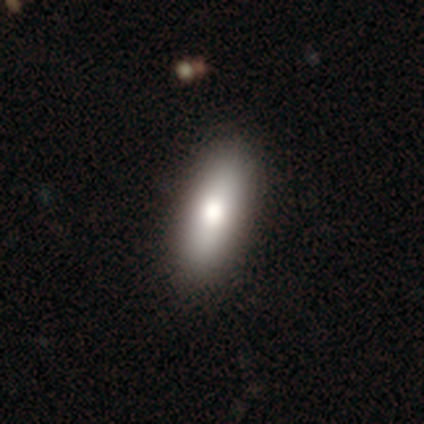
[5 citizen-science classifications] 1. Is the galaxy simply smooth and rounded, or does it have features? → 60% smooth, 40% featured or disk, 0% star or artifact.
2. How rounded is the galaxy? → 67% in between, 33% cigar-shaped, 0% round.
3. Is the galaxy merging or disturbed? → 80% none, 20% minor disturbance, 0% major disturbance, 0% merger.